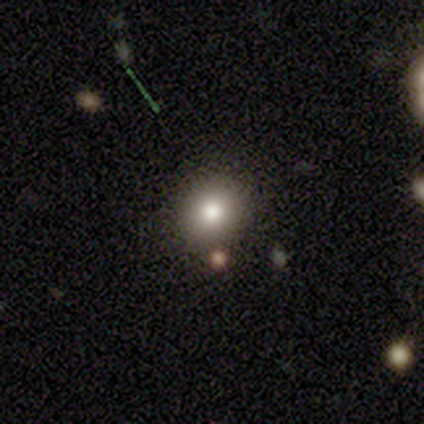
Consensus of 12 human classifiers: A smooth galaxy with no disk features (75%) that is round (78%).

Vote fractions:
- Smooth or featured? smooth: 75% / star or artifact: 17% / featured or disk: 8%
- How rounded? round: 78% / in between: 22% / cigar-shaped: 0%
- Merging? none: 80% / minor disturbance: 10% / merger: 10% / major disturbance: 0%